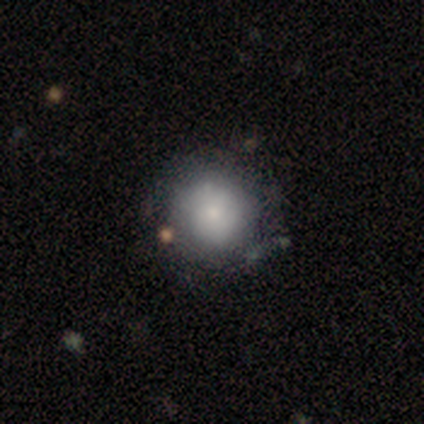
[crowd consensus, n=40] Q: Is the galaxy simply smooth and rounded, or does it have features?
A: smooth — 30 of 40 (75%).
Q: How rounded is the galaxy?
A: round — 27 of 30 (90%).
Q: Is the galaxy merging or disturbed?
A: none — 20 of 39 (51%).